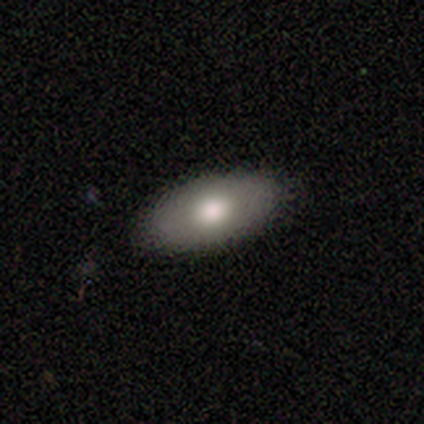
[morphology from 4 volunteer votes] Smooth or featured? 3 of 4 (75%) said smooth. How rounded? 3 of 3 (100%) said in between. Merging? 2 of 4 (50%, tied with minor disturbance) said none.